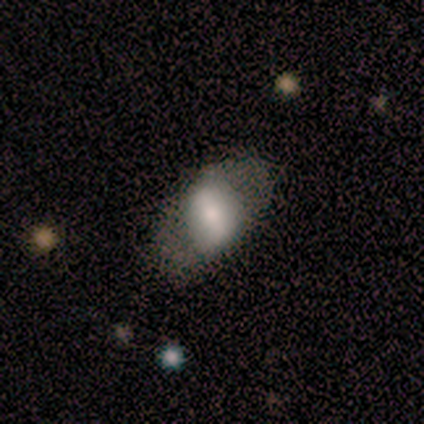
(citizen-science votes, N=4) Smooth or featured? smooth (75%)
How rounded? in between (100%)
Merging? none (67%)